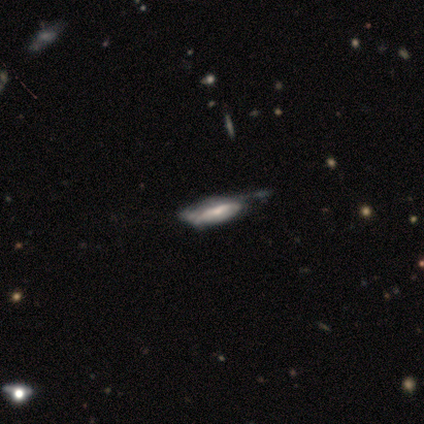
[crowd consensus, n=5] This appears to be a smooth galaxy with no disk features (60%) that is in between round and cigar-shaped (100%). Merging: minor disturbance (60%).